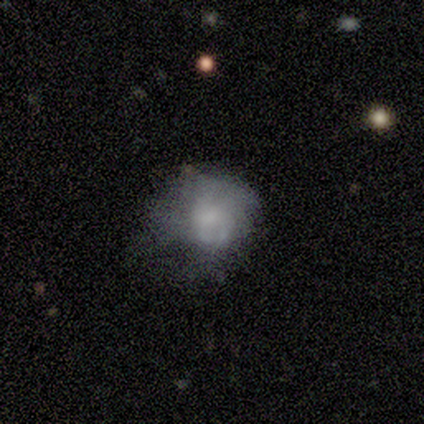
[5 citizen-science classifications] Smooth or featured?
  - smooth: 60% *
  - featured or disk: 40%
  - star or artifact: 0%
How rounded?
  - round: 100% *
  - in between: 0%
  - cigar-shaped: 0%
Merging?
  - minor disturbance: 40% *
  - none: 20%
  - major disturbance: 20%
  - merger: 20%